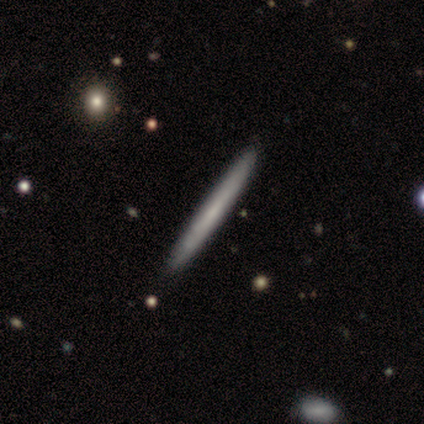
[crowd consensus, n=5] Smooth or featured: smooth — 60% (featured or disk — 40%)
How rounded: cigar-shaped — 100%
Merging: none — 60% (major disturbance — 20%)